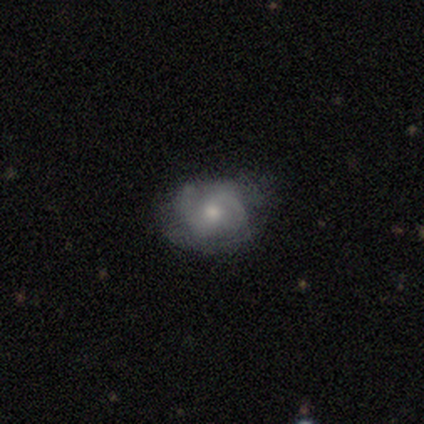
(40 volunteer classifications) Smooth or featured: featured or disk — 57% (smooth — 30%)
Edge-on disk: no — 100%
Bar: no — 61% (weak — 30%)
Spiral arms: yes — 74% (no — 26%)
Spiral winding: tight — 59% (medium — 35%)
Spiral arm count: 2 — 82% (can't tell — 12%)
Bulge size: moderate — 74% (small — 22%)
Merging: none — 40% (minor disturbance — 37%)